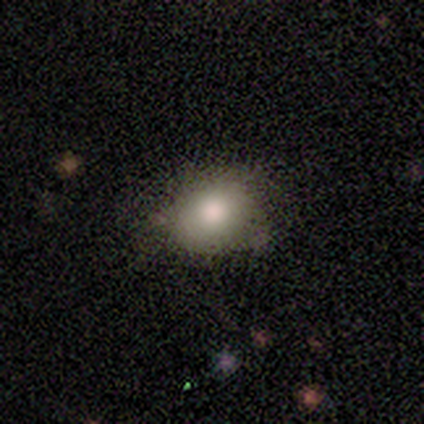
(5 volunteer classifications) Smooth or featured: smooth — 60% (featured or disk — 40%)
How rounded: in between — 100%
Merging: none — 80% (minor disturbance — 20%)